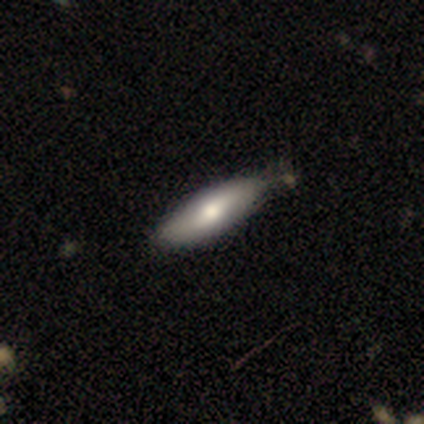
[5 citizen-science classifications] Smooth or featured? smooth (80%)
How rounded? in between (75%)
Merging? minor disturbance (60%)